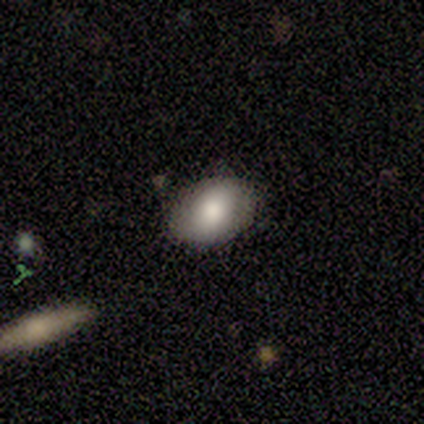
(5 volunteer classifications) Smooth or featured? 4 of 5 (80%) said smooth. How rounded? 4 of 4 (100%) said in between. Merging? 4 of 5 (80%) said none.